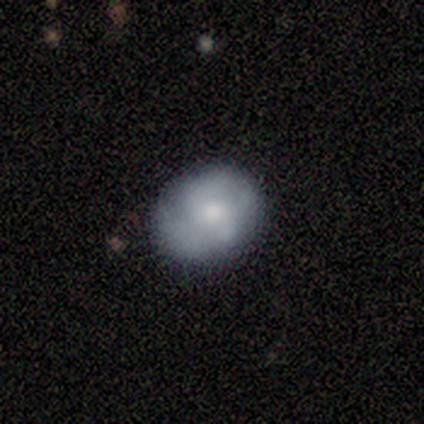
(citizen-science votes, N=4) Overall: smooth (75%). How rounded: in between (100%). Merging: none (75%).